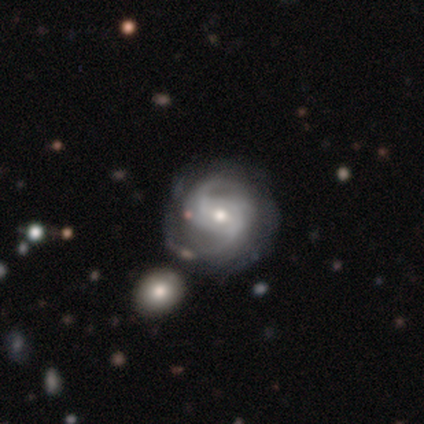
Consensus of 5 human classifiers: A featured or disk galaxy (100%) with a weak bar (50%, tied with no), 2 (50%, tied with can't tell) tight (50%) spiral arms (100%) and a moderate central bulge (75%). Merging: none (60%).